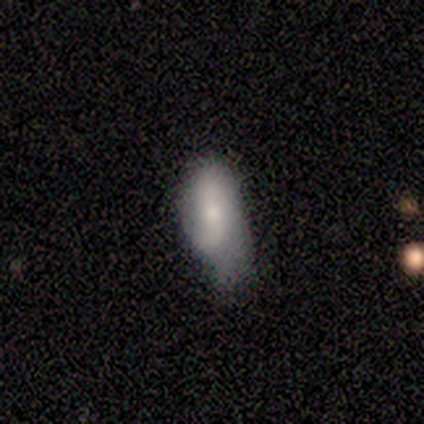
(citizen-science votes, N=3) This appears to be a smooth galaxy with no disk features (100%) that is in between round and cigar-shaped (100%). Merging: major disturbance (67%).